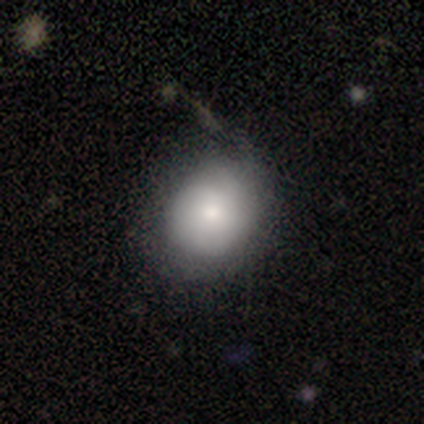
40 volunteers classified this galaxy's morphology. A smooth galaxy with no disk features (68%) that is round (74%).

Vote fractions:
- Smooth or featured? smooth: 68% / featured or disk: 20% / star or artifact: 12%
- How rounded? round: 74% / in between: 26% / cigar-shaped: 0%
- Merging? none: 74% / minor disturbance: 14% / major disturbance: 9% / merger: 3%